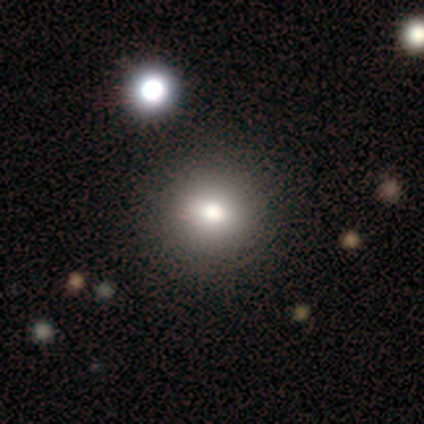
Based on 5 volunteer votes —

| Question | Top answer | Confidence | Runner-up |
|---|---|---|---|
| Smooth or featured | smooth | 80% | featured or disk (20%) |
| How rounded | round | 100% | — |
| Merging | none | 60% | minor disturbance (20%) |